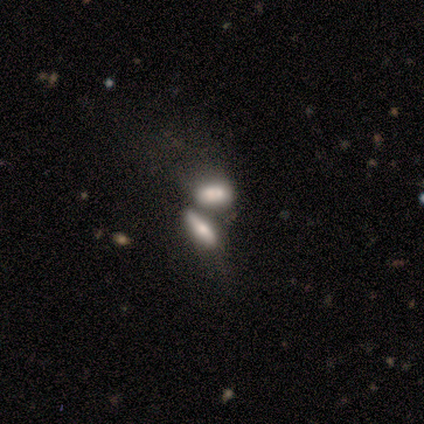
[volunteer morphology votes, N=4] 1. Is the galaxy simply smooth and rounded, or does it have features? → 100% smooth, 0% featured or disk, 0% star or artifact.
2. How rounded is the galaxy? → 50% in between (tied), 50% cigar-shaped (tied), 0% round.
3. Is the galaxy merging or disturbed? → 75% merger, 25% none, 0% minor disturbance, 0% major disturbance.